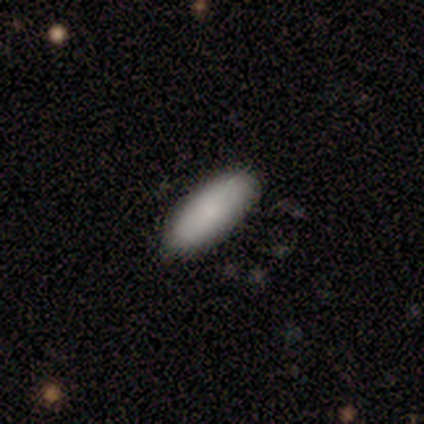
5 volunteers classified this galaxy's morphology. type=smooth (100%); roundness=in between (80%); merging=none (80%).